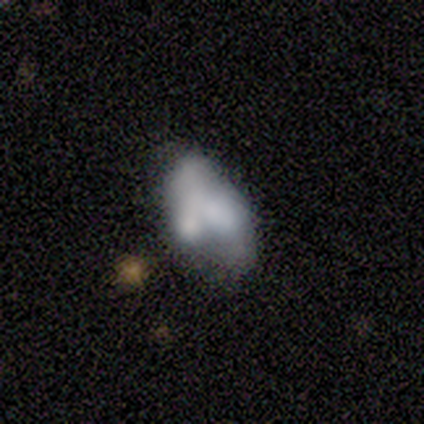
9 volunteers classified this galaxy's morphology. A smooth galaxy with no disk features (89%) that is in between round and cigar-shaped (100%).

Vote fractions:
- Smooth or featured? smooth: 89% / featured or disk: 11% / star or artifact: 0%
- How rounded? in between: 100% / round: 0% / cigar-shaped: 0%
- Merging? minor disturbance: 33% (tied) / merger: 33% (tied) / major disturbance: 22% / none: 11%